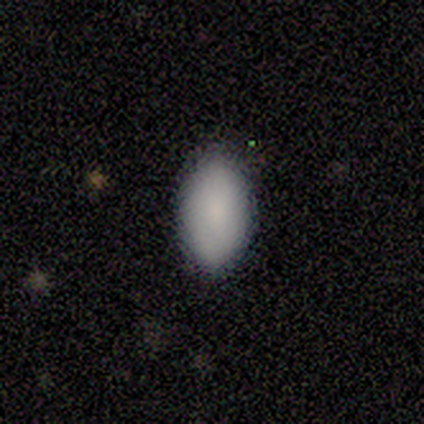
smooth_or_featured: smooth (p=0.83) [alt: featured or disk p=0.17]
how_rounded: in between (p=0.80) [alt: cigar-shaped p=0.20]
merging: none (p=0.83) [alt: minor disturbance p=0.17]